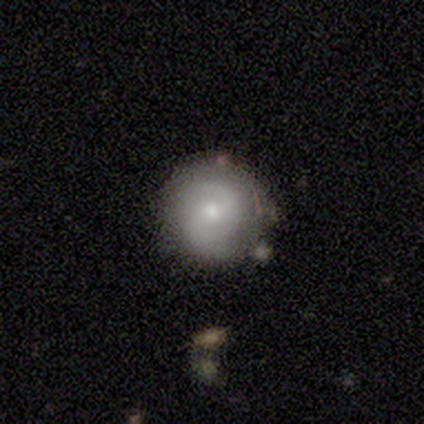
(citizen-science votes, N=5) smooth_or_featured: featured or disk (p=0.60) [alt: smooth p=0.40]
disk_edge_on: no (p=1.00)
bar: no (p=1.00)
has_spiral_arms: yes (p=1.00)
spiral_winding: medium (p=0.67) [alt: tight p=0.33]
spiral_arm_count: can't tell (p=0.67) [alt: 2 p=0.33]
bulge_size: moderate (p=0.67) [alt: small p=0.33]
merging: none (p=0.80) [alt: minor disturbance p=0.20]